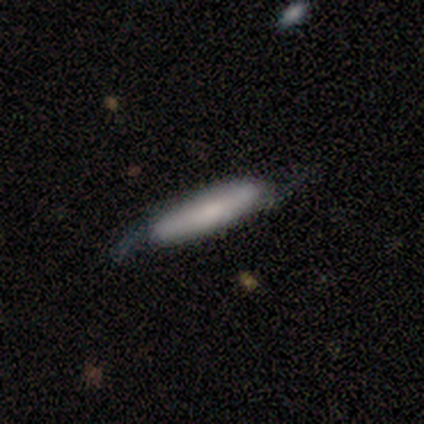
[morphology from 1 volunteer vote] smooth_or_featured: smooth (p=1.00)
how_rounded: cigar-shaped (p=1.00)
merging: minor disturbance (p=1.00)